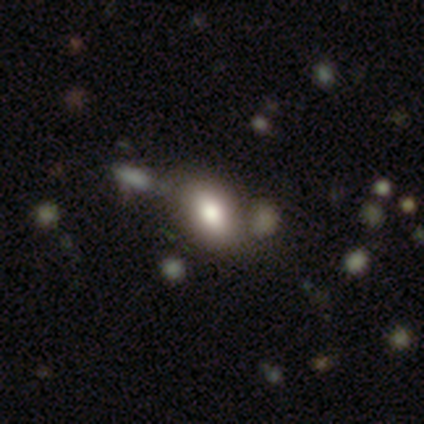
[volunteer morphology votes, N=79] Smooth or featured?
  - smooth: 82% *
  - featured or disk: 11%
  - star or artifact: 6%
How rounded?
  - in between: 85% *
  - round: 15%
  - cigar-shaped: 0%
Merging?
  - none: 35% *
  - merger: 23%
  - minor disturbance: 5%
  - major disturbance: 3%